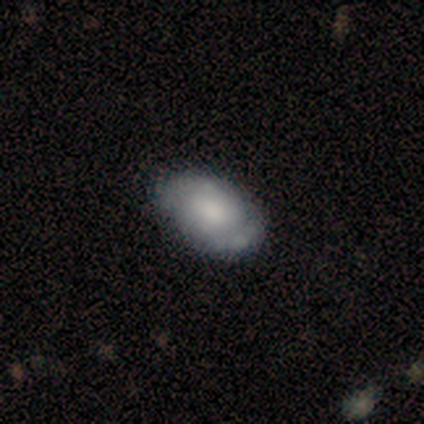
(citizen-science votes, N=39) Smooth or featured: smooth — 54% (featured or disk — 41%)
How rounded: in between — 90% (round — 10%)
Merging: none — 41% (minor disturbance — 14%)